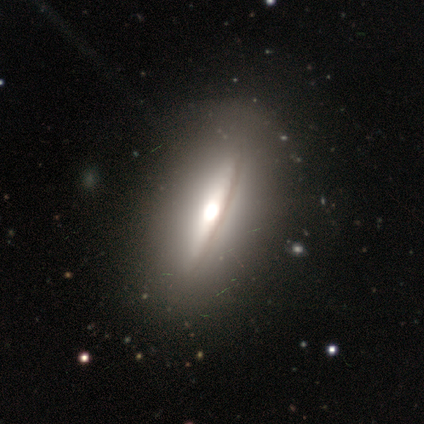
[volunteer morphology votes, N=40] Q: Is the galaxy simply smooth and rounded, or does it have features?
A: featured or disk — 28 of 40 (70%).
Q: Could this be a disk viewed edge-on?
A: yes — 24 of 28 (86%).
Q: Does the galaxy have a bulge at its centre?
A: rounded — 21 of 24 (88%).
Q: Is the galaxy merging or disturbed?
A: none — 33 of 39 (85%).